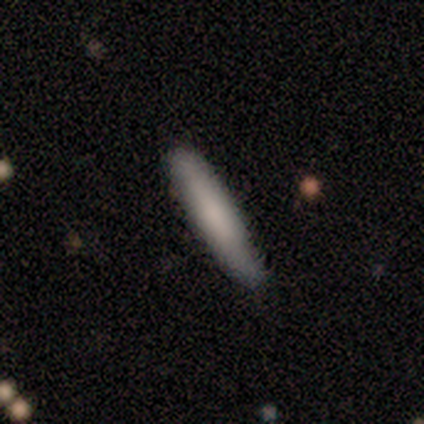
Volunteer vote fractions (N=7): Morphology: type=smooth (57%); roundness=cigar-shaped (75%); merging=none (100%).